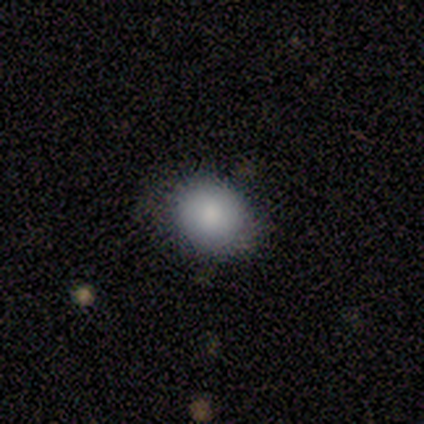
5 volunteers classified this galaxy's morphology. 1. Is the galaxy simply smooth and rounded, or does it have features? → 100% smooth, 0% featured or disk, 0% star or artifact.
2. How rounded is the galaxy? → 60% in between, 40% round, 0% cigar-shaped.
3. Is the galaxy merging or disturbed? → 80% none, 20% minor disturbance, 0% major disturbance, 0% merger.